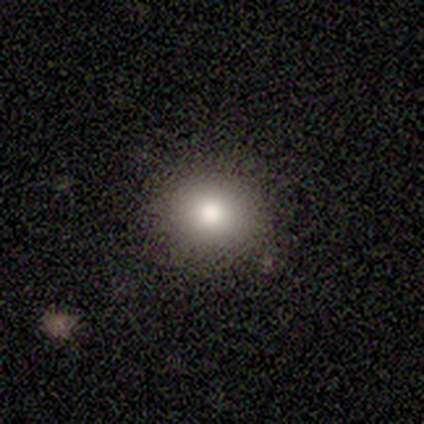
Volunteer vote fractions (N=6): Overall: smooth (50%; star or artifact 33%). How rounded: round (67%; in between 33%). Merging: none (100%).